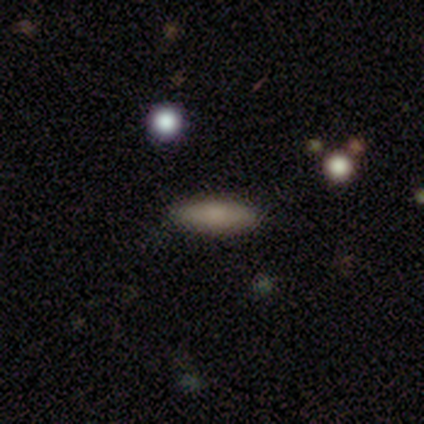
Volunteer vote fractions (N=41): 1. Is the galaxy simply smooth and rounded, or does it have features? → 76% smooth, 17% featured or disk, 7% star or artifact.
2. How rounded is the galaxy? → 74% cigar-shaped, 26% in between, 0% round.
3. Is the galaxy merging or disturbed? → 95% none, 3% minor disturbance, 3% merger, 0% major disturbance.